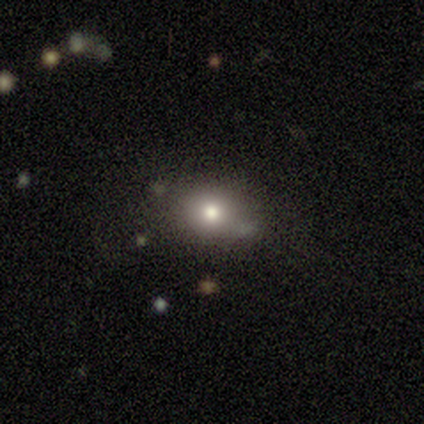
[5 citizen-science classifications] Smooth or featured? smooth (80%)
How rounded? round (50%)
Merging? none (50%, tied with minor disturbance)